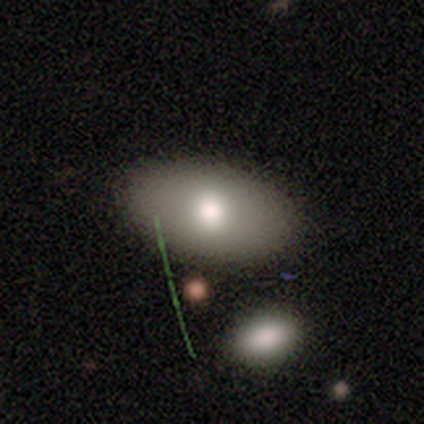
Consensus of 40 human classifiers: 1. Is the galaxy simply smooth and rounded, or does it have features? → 72% smooth, 18% featured or disk, 10% star or artifact.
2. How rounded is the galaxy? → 97% in between, 3% round, 0% cigar-shaped.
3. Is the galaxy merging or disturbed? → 53% none, 14% merger, 3% major disturbance, 0% minor disturbance.